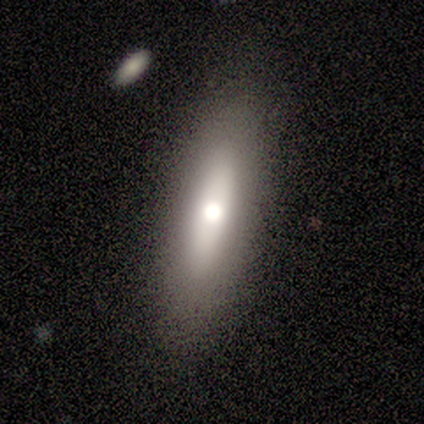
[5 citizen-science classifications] Overall: smooth (40%, tied with featured or disk). How rounded: in between (50%, tied with cigar-shaped). Merging: none (75%).